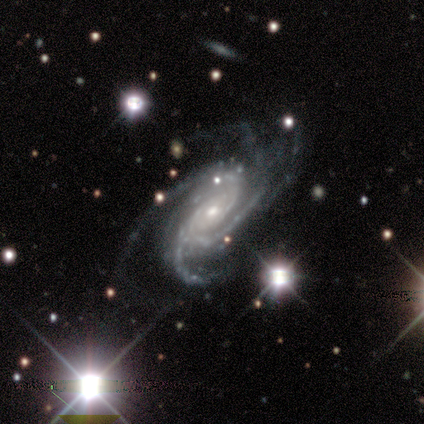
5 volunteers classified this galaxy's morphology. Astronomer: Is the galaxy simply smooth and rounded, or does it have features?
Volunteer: featured or disk — 100%.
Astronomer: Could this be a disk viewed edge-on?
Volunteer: no — 100%.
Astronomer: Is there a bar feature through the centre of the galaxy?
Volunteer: no — 80%.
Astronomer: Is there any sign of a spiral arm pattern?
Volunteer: yes — 100%.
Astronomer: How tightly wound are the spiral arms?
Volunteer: tight — 100%.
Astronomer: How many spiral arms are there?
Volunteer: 3 — 60%.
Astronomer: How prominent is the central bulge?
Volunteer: small — 80%.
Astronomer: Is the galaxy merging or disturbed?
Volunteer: none — 60% (runner-up: minor disturbance, 40%).